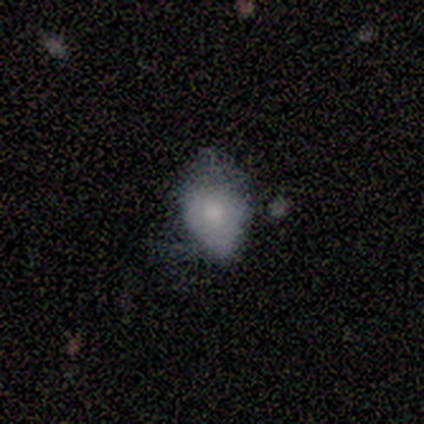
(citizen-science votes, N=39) Smooth or featured? smooth (62%)
How rounded? in between (88%)
Merging? minor disturbance (38%)